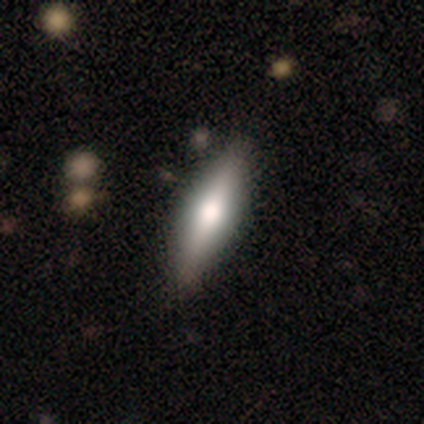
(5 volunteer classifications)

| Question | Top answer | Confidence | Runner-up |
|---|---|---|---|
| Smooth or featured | featured or disk | 60% | smooth (40%) |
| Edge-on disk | yes | 100% | — |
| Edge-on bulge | rounded | 67% | boxy (33%) |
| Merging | none | 100% | — |